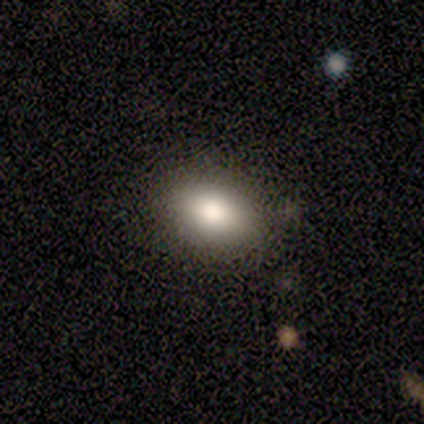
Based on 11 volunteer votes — Smooth or featured: smooth — 82% (featured or disk — 9%)
How rounded: in between — 100%
Merging: none — 90% (minor disturbance — 10%)